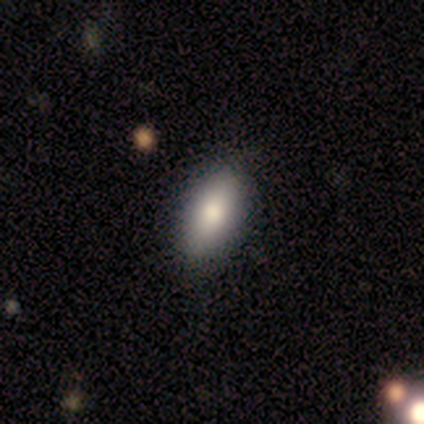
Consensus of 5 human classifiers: A smooth galaxy with no disk features (100%) that is in between round and cigar-shaped (80%). Merging: none (80%).